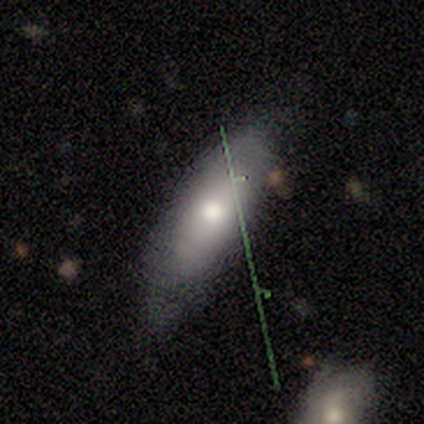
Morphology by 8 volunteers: Smooth or featured? smooth (62%)
How rounded? in between (100%)
Merging? minor disturbance (50%)